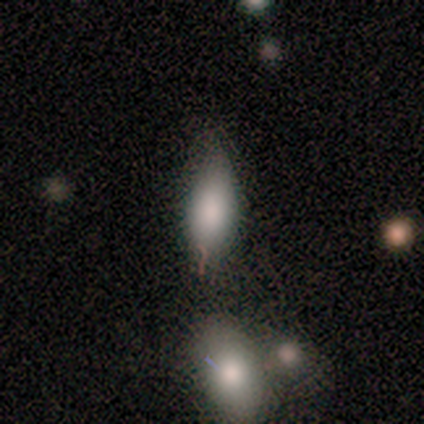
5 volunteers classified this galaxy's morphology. A smooth galaxy with no disk features (40%, tied with featured or disk) that is in between round and cigar-shaped (100%). Merging: major disturbance (75%).